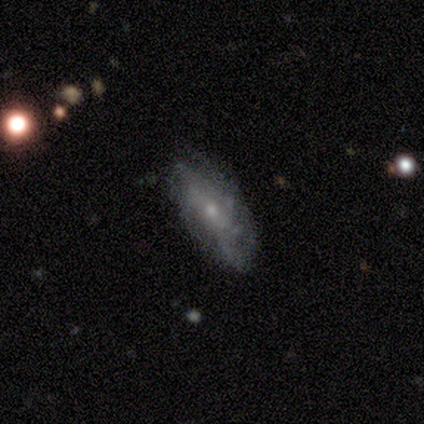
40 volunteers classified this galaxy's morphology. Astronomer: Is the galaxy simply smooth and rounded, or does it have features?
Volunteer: featured or disk — 75%.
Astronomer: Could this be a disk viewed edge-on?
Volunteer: no — 90%.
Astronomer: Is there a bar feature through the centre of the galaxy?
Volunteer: no — 78%.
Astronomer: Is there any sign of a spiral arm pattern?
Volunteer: yes — 81%.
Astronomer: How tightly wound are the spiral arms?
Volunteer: tight — 45% (runner-up: medium, 36%).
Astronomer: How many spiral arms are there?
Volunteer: can't tell — 68%.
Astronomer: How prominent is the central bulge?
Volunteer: small — 81%.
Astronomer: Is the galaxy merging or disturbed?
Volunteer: none — 68%.